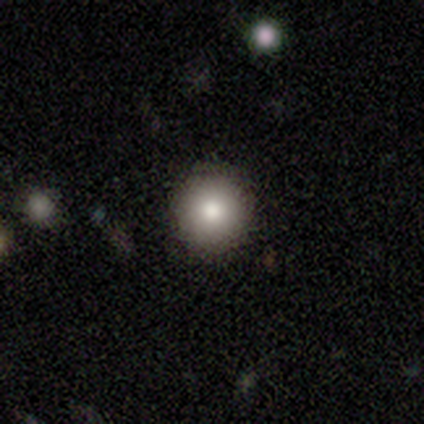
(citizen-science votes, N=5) smooth_or_featured: smooth (p=1.00)
how_rounded: round (p=1.00)
merging: none (p=1.00)